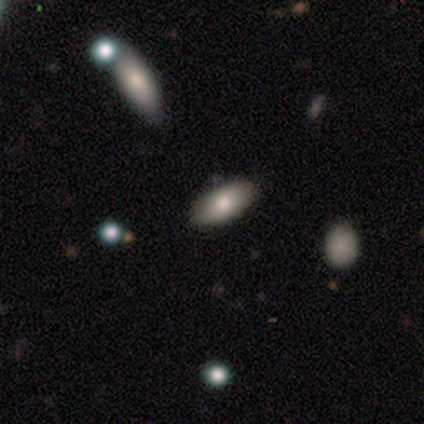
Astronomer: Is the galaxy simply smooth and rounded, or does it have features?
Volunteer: smooth — 100%.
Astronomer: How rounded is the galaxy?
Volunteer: in between — 75%.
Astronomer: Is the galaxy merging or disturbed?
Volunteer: none — 75%.